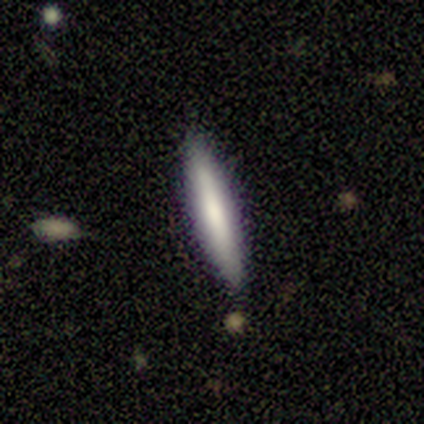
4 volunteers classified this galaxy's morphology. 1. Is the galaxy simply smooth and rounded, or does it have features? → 75% smooth, 25% featured or disk, 0% star or artifact.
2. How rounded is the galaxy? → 100% cigar-shaped, 0% round, 0% in between.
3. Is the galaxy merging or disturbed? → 100% none, 0% minor disturbance, 0% major disturbance, 0% merger.